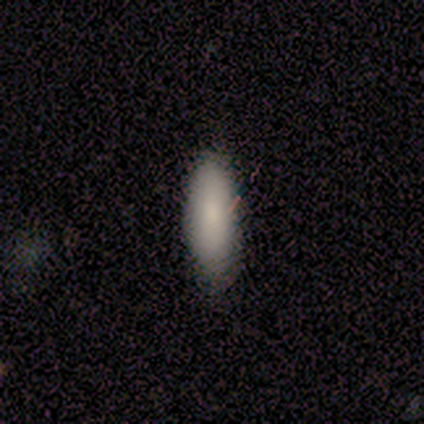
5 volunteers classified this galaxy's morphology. This is clearly a smooth galaxy (100%). How rounded: likely in between (60%). Merging: clearly none (100%).